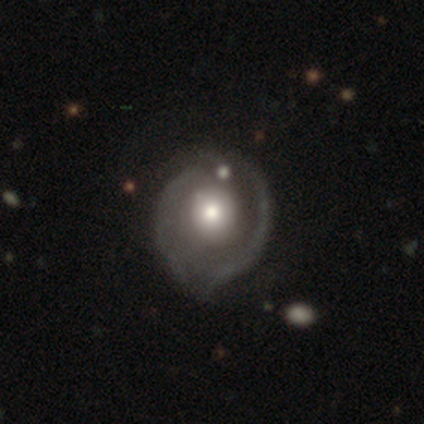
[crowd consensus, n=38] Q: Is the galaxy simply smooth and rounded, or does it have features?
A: featured or disk — 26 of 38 (68%).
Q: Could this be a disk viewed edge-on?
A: no — 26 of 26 (100%).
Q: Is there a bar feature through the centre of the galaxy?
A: no — 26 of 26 (100%).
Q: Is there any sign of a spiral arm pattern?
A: yes — 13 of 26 (50%, tied with no).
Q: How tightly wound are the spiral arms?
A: tight — 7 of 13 (54%).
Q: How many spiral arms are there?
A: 2 — 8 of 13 (62%).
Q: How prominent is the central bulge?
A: moderate — 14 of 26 (54%).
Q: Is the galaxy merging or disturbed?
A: none — 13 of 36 (36%).